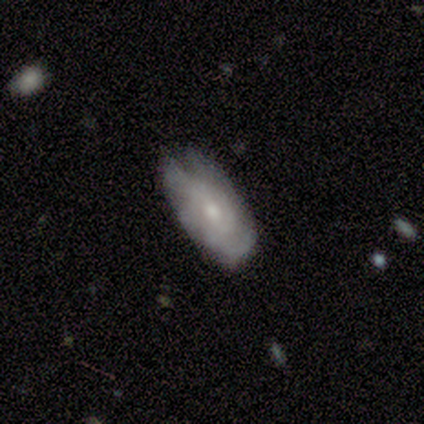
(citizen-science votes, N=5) Smooth or featured: featured or disk — 60% (smooth — 40%)
Edge-on disk: no — 100%
Bar: no — 67% (weak — 33%)
Spiral arms: no — 67% (yes — 33%)
Bulge size: small — 67% (moderate — 33%)
Merging: minor disturbance — 80% (none — 20%)